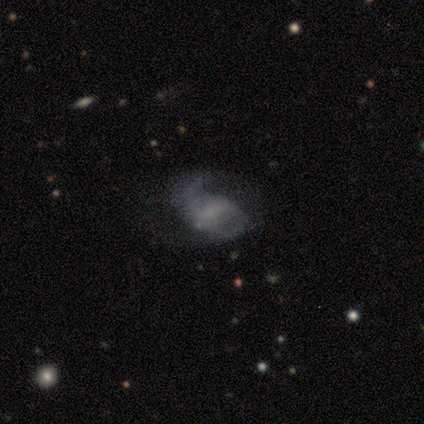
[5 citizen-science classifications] smooth_or_featured: featured or disk (p=0.40) [tied with: star or artifact p=0.40]
disk_edge_on: no (p=1.00)
bar: strong (p=0.50) [tied with: no p=0.50]
has_spiral_arms: yes (p=0.50) [tied with: no p=0.50]
spiral_winding: medium (p=1.00)
spiral_arm_count: 2 (p=1.00)
bulge_size: small (p=1.00)
merging: none (p=0.67) [alt: minor disturbance p=0.33]